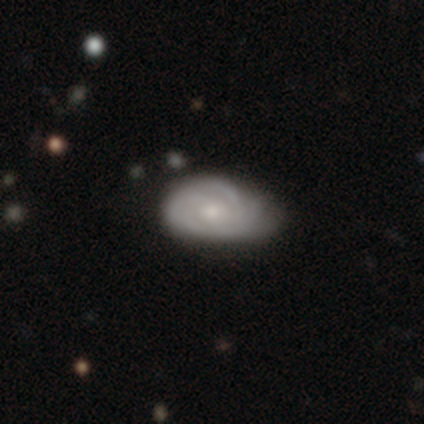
Smooth or featured: featured or disk — 76% (smooth — 23%)
Edge-on disk: no — 97% (yes — 3%)
Bar: no — 78% (weak — 21%)
Spiral arms: yes — 91% (no — 9%)
Spiral winding: tight — 72% (medium — 21%)
Spiral arm count: can't tell — 49% (2 — 23%)
Bulge size: small — 60% (moderate — 38%)
Merging: none — 22% (minor disturbance — 19%)